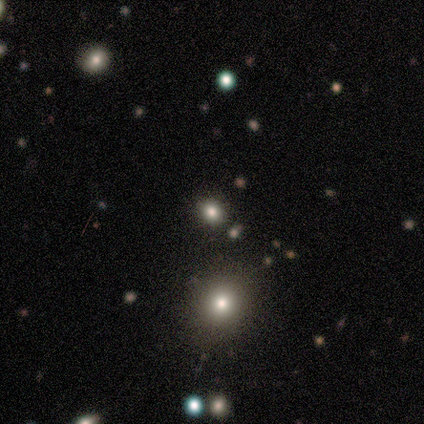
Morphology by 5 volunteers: Smooth or featured? star or artifact (60%)